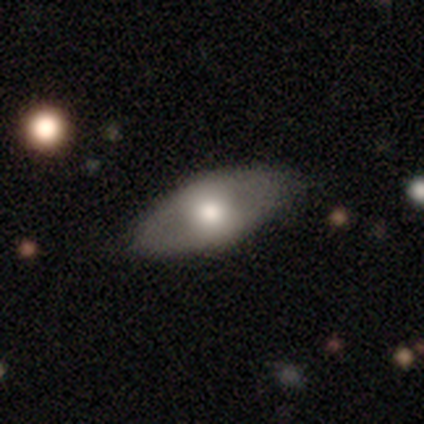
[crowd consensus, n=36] Smooth or featured? 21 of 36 (58%) said smooth. How rounded? 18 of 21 (86%) said in between. Merging? 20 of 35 (57%) said none.